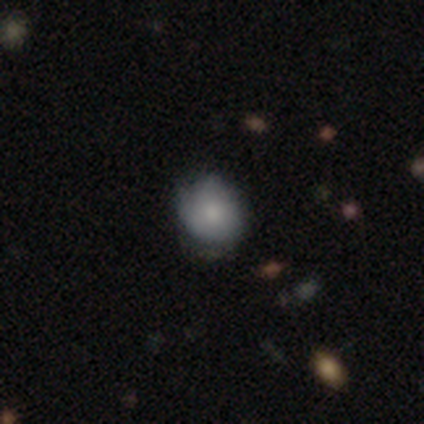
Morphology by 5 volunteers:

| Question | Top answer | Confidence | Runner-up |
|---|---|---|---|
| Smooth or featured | smooth | 60% | featured or disk (40%) |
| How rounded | round | 67% | in between (33%) |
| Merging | none | 60% | minor disturbance (40%) |